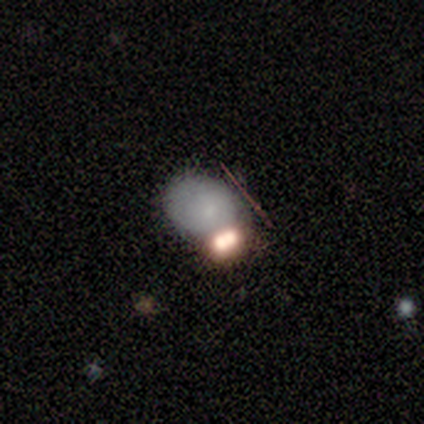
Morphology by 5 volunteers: smooth_or_featured: smooth (p=0.40) [tied with: featured or disk p=0.40]
how_rounded: round (p=0.50) [tied with: in between p=0.50]
merging: none (p=0.50) [tied with: merger p=0.50]